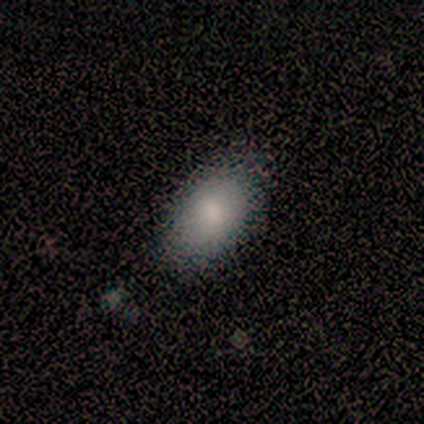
A smooth galaxy with no disk features (60%) that is in between round and cigar-shaped (100%). Merging: none (80%).